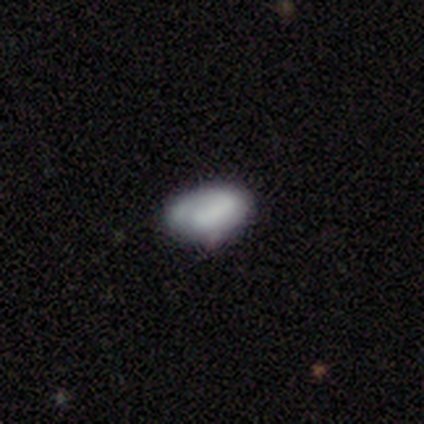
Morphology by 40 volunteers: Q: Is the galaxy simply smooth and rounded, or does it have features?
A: smooth — 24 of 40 (60%).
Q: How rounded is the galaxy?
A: in between — 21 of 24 (88%).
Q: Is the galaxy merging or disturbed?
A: none — 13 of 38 (34%).